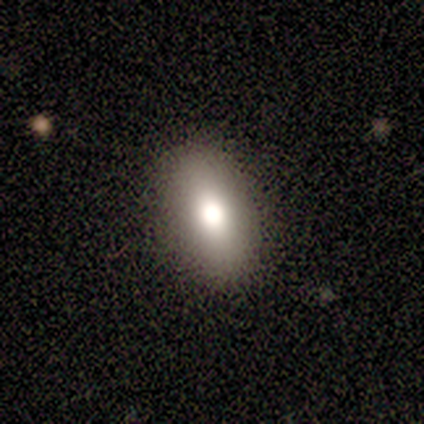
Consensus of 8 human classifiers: A smooth galaxy with no disk features (88%) that is in between round and cigar-shaped (86%).

Vote fractions:
- Smooth or featured? smooth: 88% / featured or disk: 12% / star or artifact: 0%
- How rounded? in between: 86% / round: 14% / cigar-shaped: 0%
- Merging? none: 100% / minor disturbance: 0% / major disturbance: 0% / merger: 0%